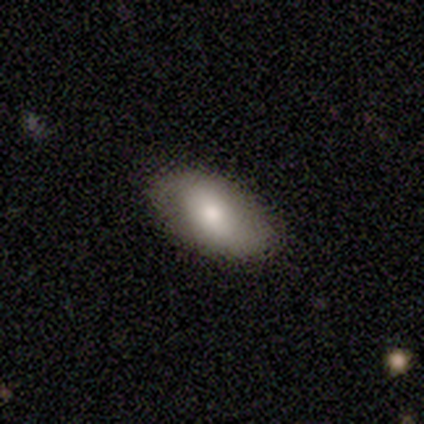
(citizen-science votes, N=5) This appears to be a smooth galaxy with no disk features (80%) that is in between round and cigar-shaped (100%). Merging: none (100%).